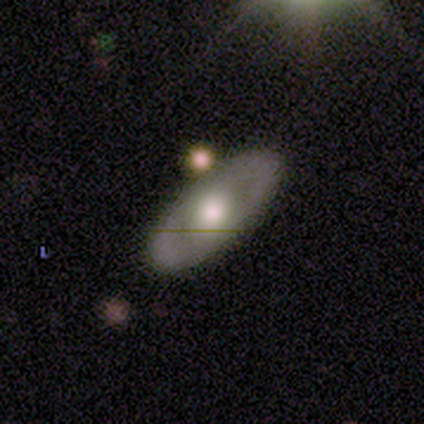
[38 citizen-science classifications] smooth_or_featured: featured or disk (p=0.53) [alt: smooth p=0.32]
disk_edge_on: no (p=0.95) [alt: yes p=0.05]
bar: no (p=0.84) [alt: weak p=0.16]
has_spiral_arms: no (p=0.84) [alt: yes p=0.16]
bulge_size: large (p=0.47) [tied with: moderate p=0.47]
merging: none (p=0.84) [alt: minor disturbance p=0.06]